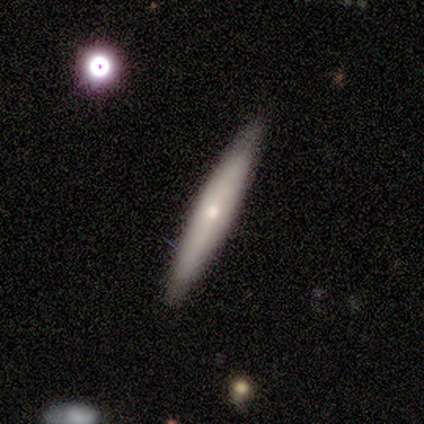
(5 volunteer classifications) Morphology: type=smooth (80%); roundness=cigar-shaped (100%); merging=none (80%).